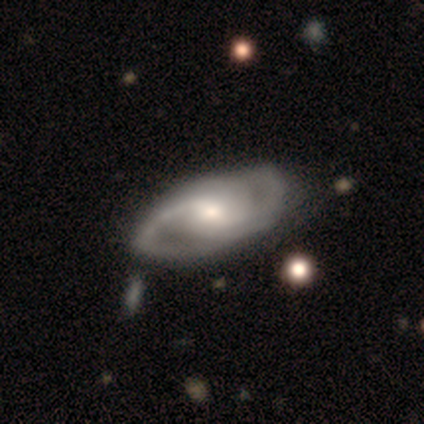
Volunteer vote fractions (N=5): Smooth or featured? 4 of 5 (80%) said featured or disk. Edge-on disk? 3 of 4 (75%) said no. Bar? 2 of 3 (67%) said no. Spiral arms? 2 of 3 (67%) said yes. Spiral winding? 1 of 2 (50%, tied with loose) said tight. Spiral arm count? 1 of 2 (50%, tied with 3) said 2. Bulge size? 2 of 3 (67%) said moderate. Merging? 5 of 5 (100%) said none.